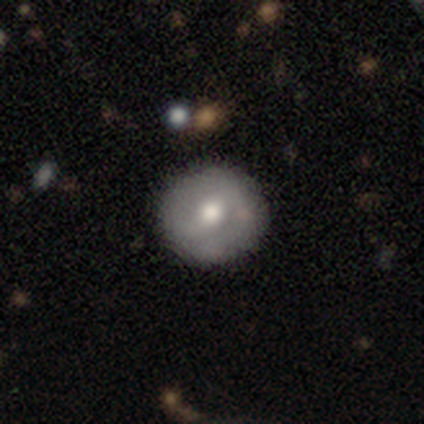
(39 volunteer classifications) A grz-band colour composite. It shows a featured or disk galaxy (54%) with a weak bar (55%), 2 (80%) tight (50%) spiral arms (50%, tied with no) and a moderate central bulge (75%). Merging: none (84%).